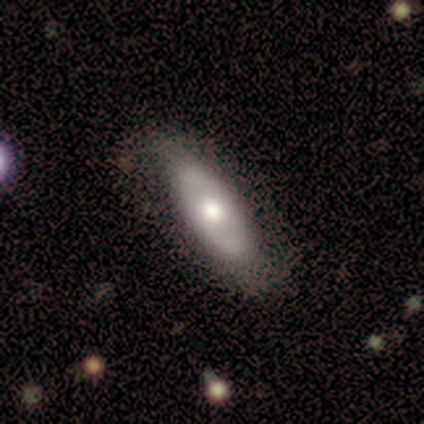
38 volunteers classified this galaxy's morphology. This is possibly a featured or disk galaxy (58%). It is clearly not viewed edge-on (91%). Bar: clearly no (85%). Spiral arm pattern: possibly no (55%). Central bulge: likely moderate (75%). Merging: likely none (72%).